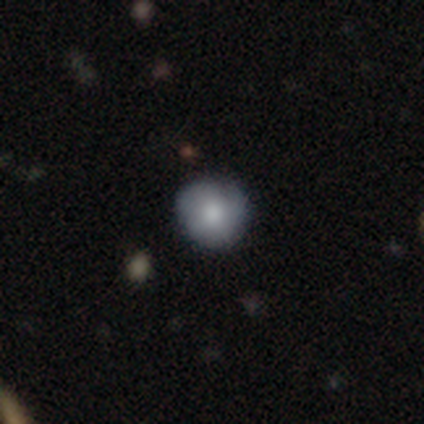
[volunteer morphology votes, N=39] smooth-or-featured: smooth: 64% | featured or disk: 31% | star or artifact: 5%
  how-rounded: round: 100% | in between: 0% | cigar-shaped: 0%
  merging: none: 78% | minor disturbance: 19% | merger: 3% | major disturbance: 0%